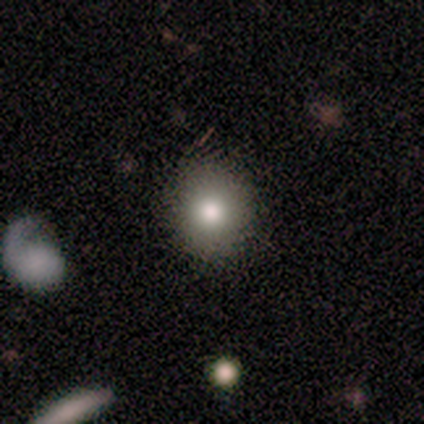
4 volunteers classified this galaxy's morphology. smooth_or_featured: smooth (p=1.00)
how_rounded: round (p=1.00)
merging: none (p=1.00)